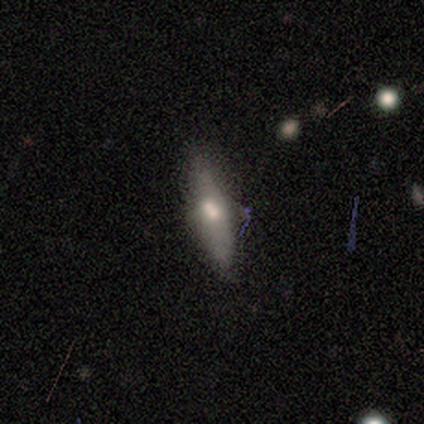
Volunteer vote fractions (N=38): Q: Smooth or featured?
A: smooth (47%); tied with: featured or disk (47%)
Q: How rounded?
A: cigar-shaped (78%); runner-up: in between (22%)
Q: Merging?
A: none (61%); runner-up: minor disturbance (17%)